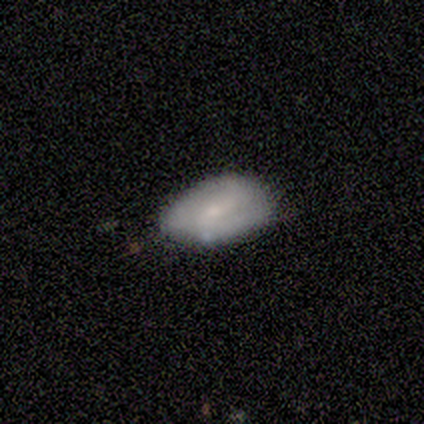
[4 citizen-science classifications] Volunteers were most divided on "smooth or featured" (2-way tie): smooth: 50%, featured or disk: 50%, star or artifact: 0%. More confident: how rounded — in between (100%); merging — none (75%).